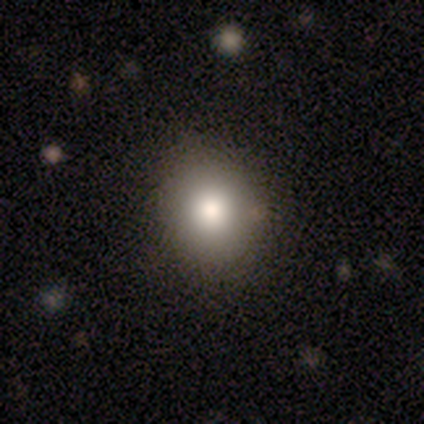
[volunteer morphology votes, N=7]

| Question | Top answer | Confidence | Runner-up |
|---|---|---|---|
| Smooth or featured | smooth | 71% | featured or disk (14%) |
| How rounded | round | 100% | — |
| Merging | none | 100% | — |